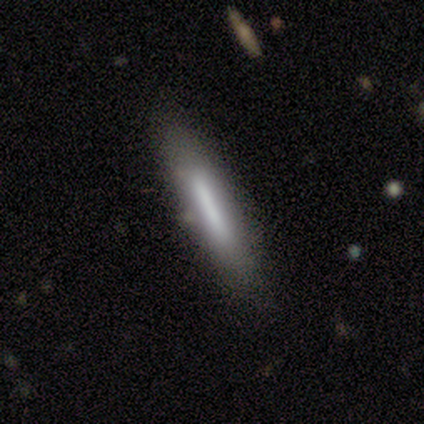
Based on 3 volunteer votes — Consensus on every question: smooth or featured — smooth (100%); how rounded — cigar-shaped (100%); merging — none (100%).